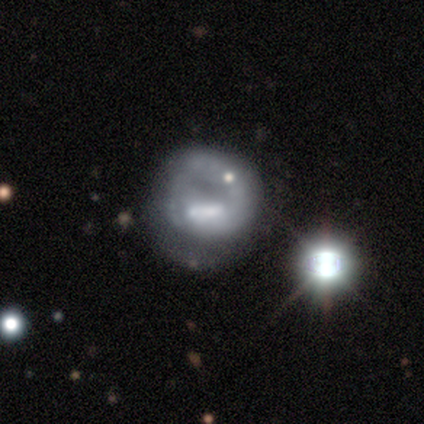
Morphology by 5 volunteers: Volunteers were most divided on "smooth or featured" (2-way tie): smooth: 40%, featured or disk: 40%, star or artifact: 20%; "merging" (2-way tie): none: 50%, major disturbance: 50%, minor disturbance: 0%, merger: 0%. More confident: how rounded — round (100%).